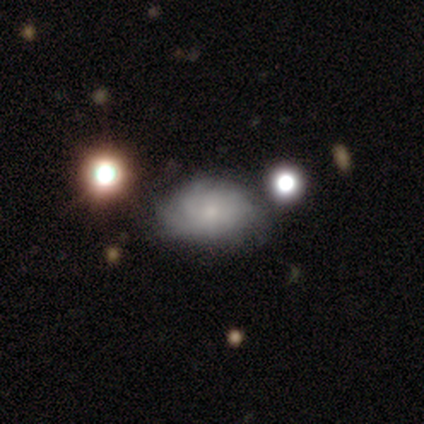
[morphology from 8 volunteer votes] Smooth or featured?
  - smooth: 62% *
  - featured or disk: 38%
  - star or artifact: 0%
How rounded?
  - in between: 60% *
  - round: 40%
  - cigar-shaped: 0%
Merging?
  - minor disturbance: 62% *
  - none: 38%
  - major disturbance: 0%
  - merger: 0%